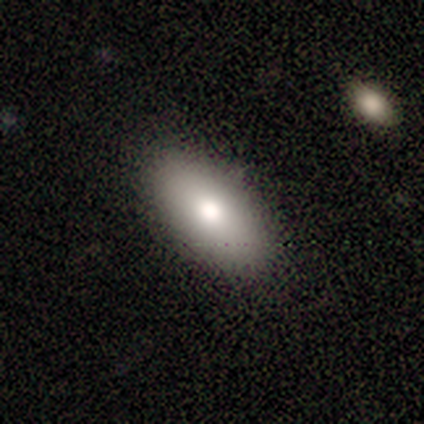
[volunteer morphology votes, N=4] type=smooth (100%); roundness=in between (100%); merging=none (75%).